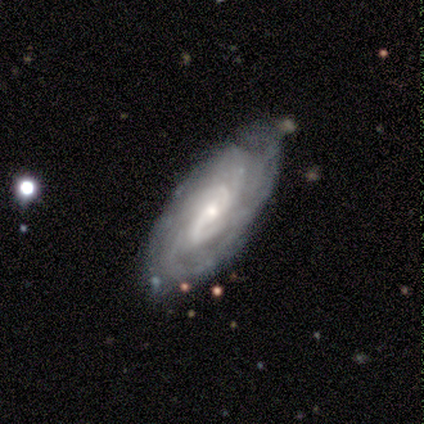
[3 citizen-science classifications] Smooth or featured? 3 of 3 (100%) said featured or disk. Edge-on disk? 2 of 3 (67%) said no. Bar? 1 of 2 (50%, tied with no) said strong. Spiral arms? 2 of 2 (100%) said yes. Spiral winding? 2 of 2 (100%) said tight. Spiral arm count? 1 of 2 (50%, tied with more than 4) said 2. Bulge size? 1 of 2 (50%, tied with small) said moderate. Merging? 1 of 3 (33%, tied with minor disturbance and merger) said none.